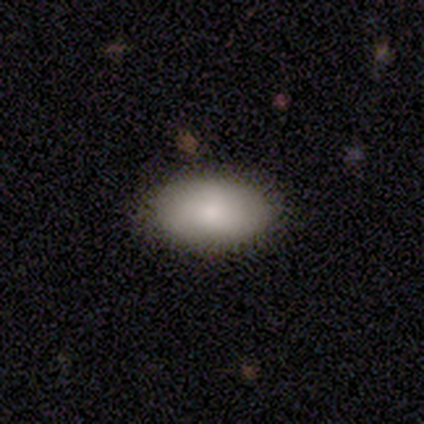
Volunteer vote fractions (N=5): Smooth or featured? smooth (80%)
How rounded? in between (100%)
Merging? none (100%)